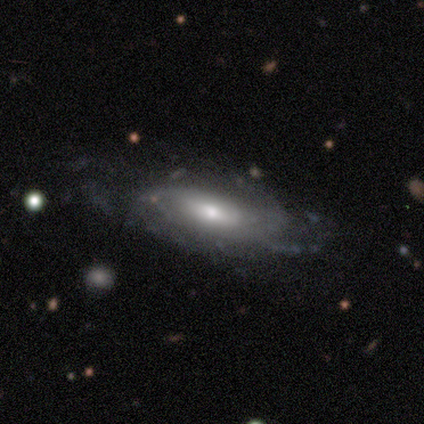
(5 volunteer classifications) Smooth or featured: featured or disk — 80% (star or artifact — 20%)
Edge-on disk: no — 100%
Bar: weak — 75% (no — 25%)
Spiral arms: yes — 100%
Spiral winding: loose — 50% (tight — 25%)
Spiral arm count: can't tell — 50% (2 — 25%)
Bulge size: moderate — 50% (large — 25%)
Merging: none — 50% (tied with minor disturbance — 50%)